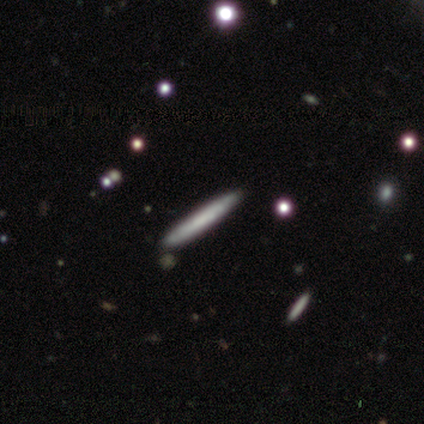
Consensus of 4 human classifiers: Q: Smooth or featured?
A: smooth (75%); runner-up: featured or disk (25%)
Q: How rounded?
A: cigar-shaped (100%)
Q: Merging?
A: none (75%); runner-up: minor disturbance (25%)